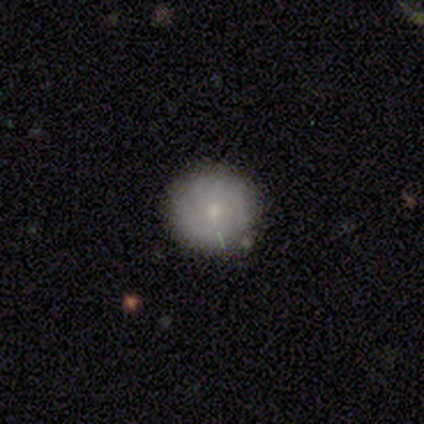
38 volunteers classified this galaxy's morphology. Volunteers were most divided on "smooth or featured": smooth: 61%, featured or disk: 26%, star or artifact: 13%. More confident: how rounded — round (91%); merging — none (85%).